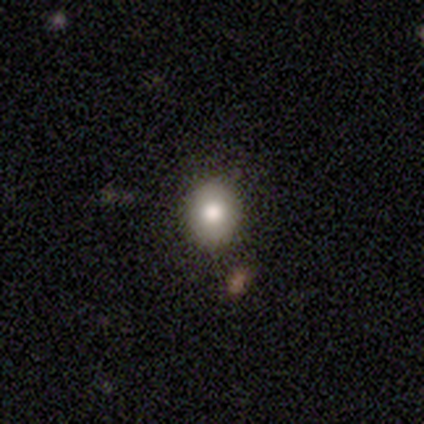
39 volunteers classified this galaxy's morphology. smooth 77%, featured or disk 15%, star or artifact 8%. Down the decision tree: how rounded — round (77%); merging — none (72%).